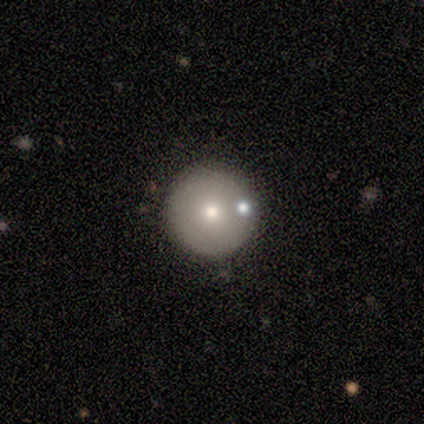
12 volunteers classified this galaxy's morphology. Smooth or featured: smooth — 92% (featured or disk — 8%)
How rounded: round — 100%
Merging: none — 83% (minor disturbance — 8%)